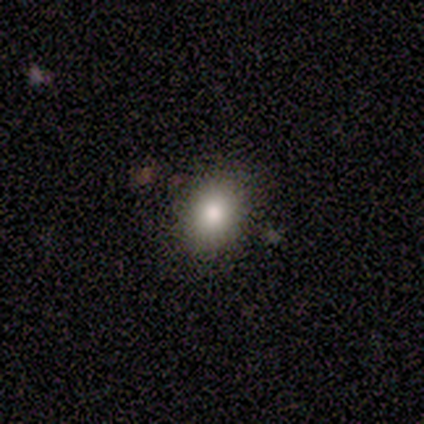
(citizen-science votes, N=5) smooth 100%, featured or disk 0%, star or artifact 0%. Down the decision tree: how rounded — in between (60%); merging — none (100%).